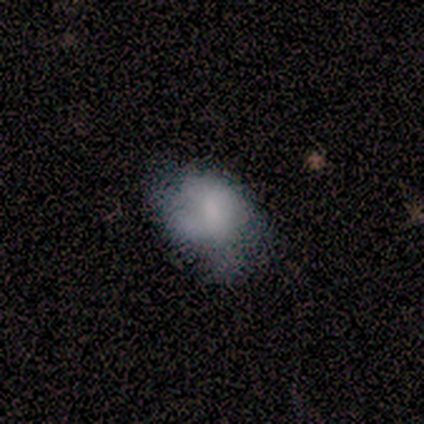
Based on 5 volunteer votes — This is likely a smooth galaxy (60%). How rounded: clearly in between (100%). Merging: possibly major disturbance (50%).